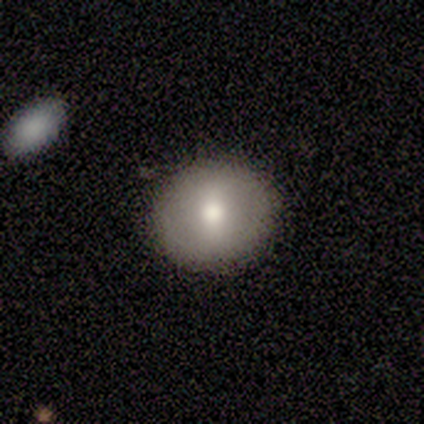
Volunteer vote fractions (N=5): Smooth or featured: smooth — 80% (featured or disk — 20%)
How rounded: round — 50% (in between — 25%)
Merging: none — 100%